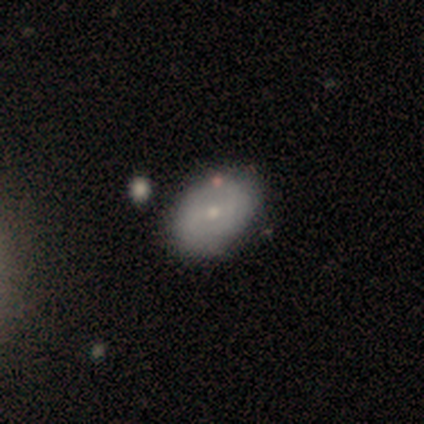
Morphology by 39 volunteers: smooth_or_featured: featured or disk (p=0.56) [alt: smooth p=0.41]
disk_edge_on: no (p=0.86) [alt: yes p=0.14]
bar: weak (p=0.47) [tied with: no p=0.47]
has_spiral_arms: yes (p=0.58) [alt: no p=0.42]
spiral_winding: medium (p=0.55) [alt: tight p=0.36]
spiral_arm_count: can't tell (p=0.45) [alt: 2 p=0.36]
bulge_size: small (p=0.68) [alt: moderate p=0.32]
merging: none (p=0.84) [alt: minor disturbance p=0.08]